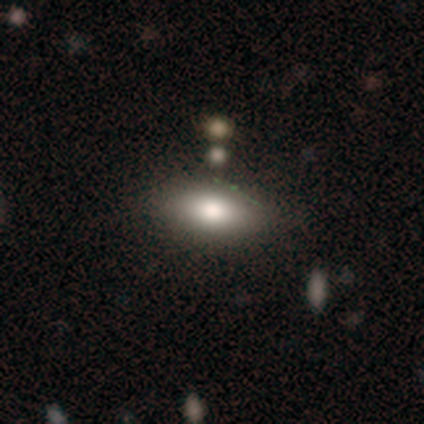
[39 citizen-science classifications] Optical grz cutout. It shows a smooth galaxy with no disk features (69%) that is in between round and cigar-shaped (96%). Merging: none (63%).